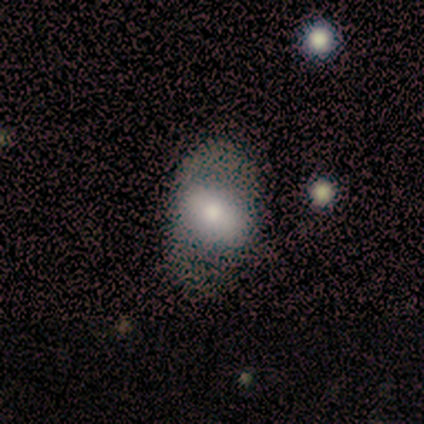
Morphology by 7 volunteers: smooth_or_featured: smooth (p=0.57) [alt: featured or disk p=0.43]
how_rounded: in between (p=1.00)
merging: none (p=0.43) [tied with: minor disturbance p=0.43]